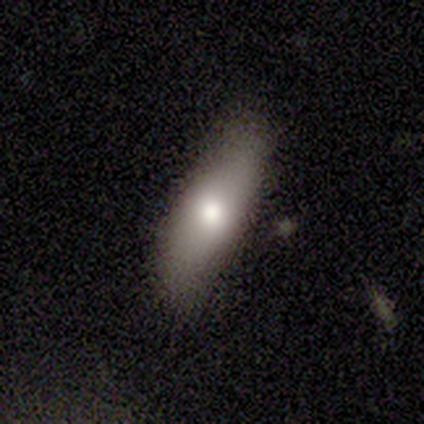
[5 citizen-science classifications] A smooth galaxy with no disk features (100%) that is in between round and cigar-shaped (60%).

Vote fractions:
- Smooth or featured? smooth: 100% / featured or disk: 0% / star or artifact: 0%
- How rounded? in between: 60% / round: 20% / cigar-shaped: 20%
- Merging? none: 100% / minor disturbance: 0% / major disturbance: 0% / merger: 0%